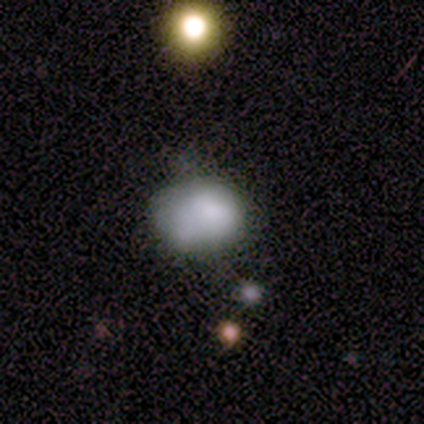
smooth_or_featured: smooth (p=0.80) [alt: featured or disk p=0.20]
how_rounded: in between (p=0.75) [alt: round p=0.25]
merging: none (p=0.60) [alt: minor disturbance p=0.40]